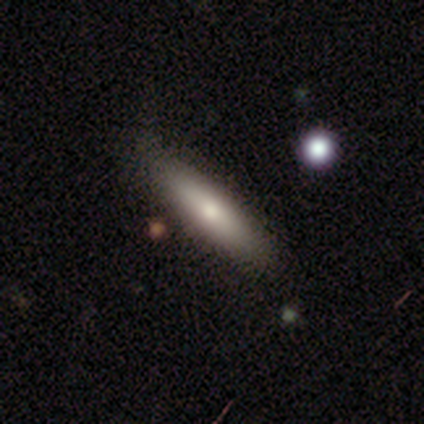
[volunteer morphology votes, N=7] smooth_or_featured: smooth (p=0.86) [alt: star or artifact p=0.14]
how_rounded: cigar-shaped (p=0.67) [alt: in between p=0.33]
merging: none (p=1.00)